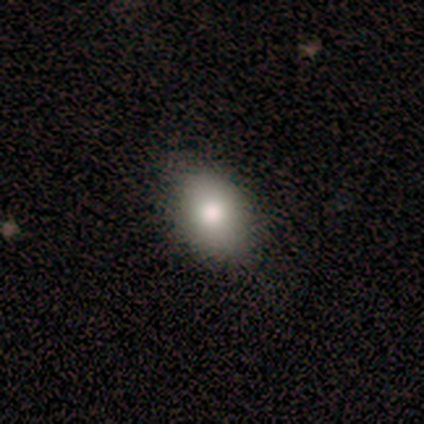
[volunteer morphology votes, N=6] Overall: smooth (67%). How rounded: in between (75%). Merging: none (60%; minor disturbance 40%).